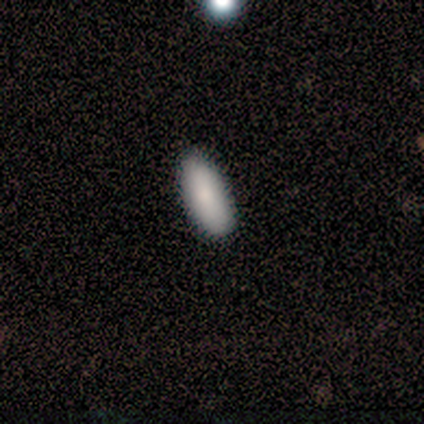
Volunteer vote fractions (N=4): Smooth or featured? 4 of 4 (100%) said smooth. How rounded? 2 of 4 (50%, tied with cigar-shaped) said in between. Merging? 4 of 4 (100%) said none.